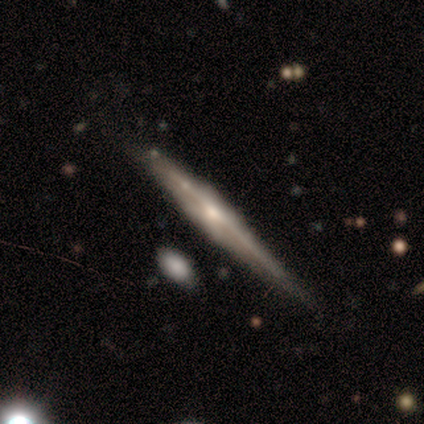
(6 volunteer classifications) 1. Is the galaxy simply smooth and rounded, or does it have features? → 83% featured or disk, 17% smooth, 0% star or artifact.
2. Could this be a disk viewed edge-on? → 100% yes, 0% no.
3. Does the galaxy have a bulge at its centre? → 60% rounded, 20% boxy, 20% none.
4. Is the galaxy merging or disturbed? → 50% none (tied), 50% minor disturbance (tied), 0% major disturbance, 0% merger.